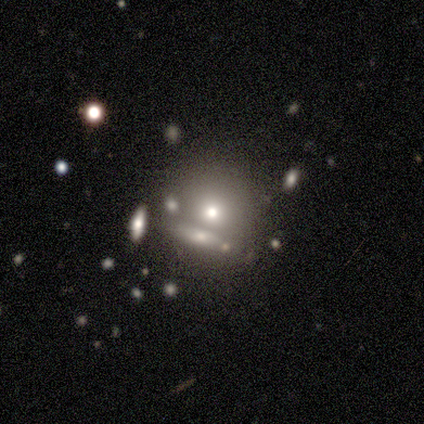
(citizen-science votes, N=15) Smooth or featured? smooth (60%)
How rounded? round (89%)
Merging? none (69%)